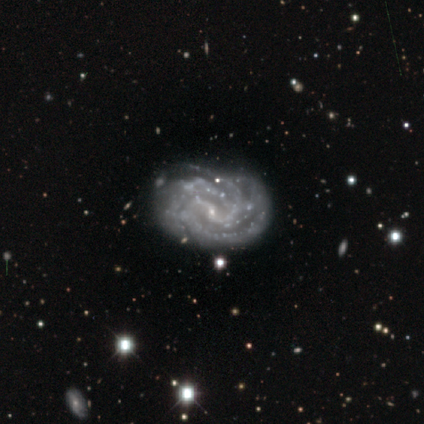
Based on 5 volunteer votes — Overall: featured or disk (100%). Edge-on disk: no (100%). Bar: weak (60%; no 40%). Spiral arms: yes (100%). Spiral arm count: can't tell (40%; 2 20%). Spiral winding: tight (60%; medium 40%). Bulge size: small (100%). Merging: none (40%, tied with major disturbance).